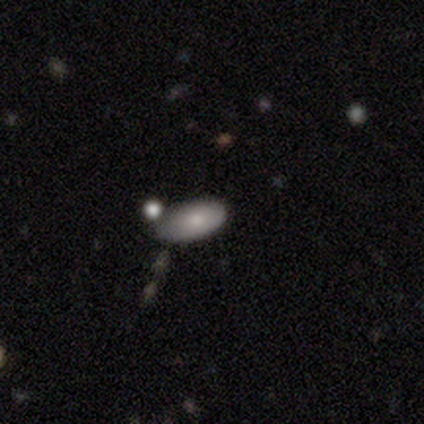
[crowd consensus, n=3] Smooth or featured?
  - smooth: 100% *
  - featured or disk: 0%
  - star or artifact: 0%
How rounded?
  - in between: 100% *
  - round: 0%
  - cigar-shaped: 0%
Merging?
  - none: 67% *
  - minor disturbance: 33%
  - major disturbance: 0%
  - merger: 0%